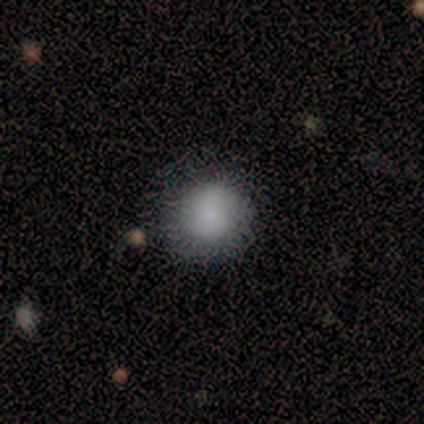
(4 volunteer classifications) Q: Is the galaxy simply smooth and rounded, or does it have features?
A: smooth — 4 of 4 (100%).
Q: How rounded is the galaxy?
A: round — 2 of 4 (50%, tied with in between).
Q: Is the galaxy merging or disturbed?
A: none — 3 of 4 (75%).